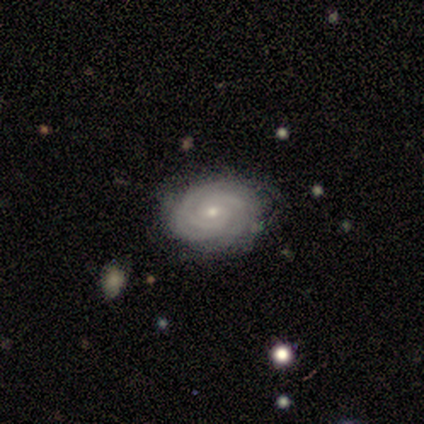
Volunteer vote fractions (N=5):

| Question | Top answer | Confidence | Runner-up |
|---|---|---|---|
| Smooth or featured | featured or disk | 100% | — |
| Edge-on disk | no | 100% | — |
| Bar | no | 100% | — |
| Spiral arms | yes | 100% | — |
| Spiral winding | tight | 80% | medium (20%) |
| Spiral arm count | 3 | 40% | tied: can't tell (40%) |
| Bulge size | small | 60% | moderate (40%) |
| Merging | none | 80% | minor disturbance (20%) |